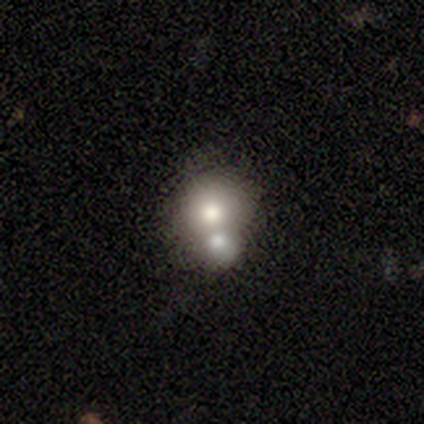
Morphology: type=smooth (40%, tied with featured or disk); roundness=round (100%); merging=merger (75%).